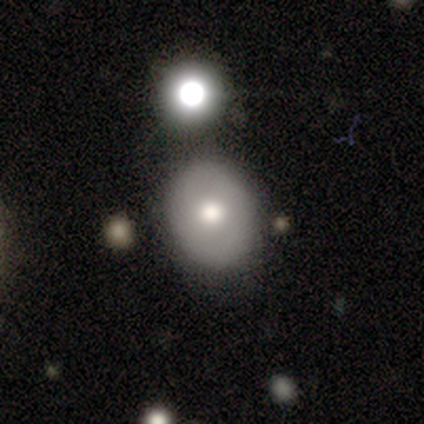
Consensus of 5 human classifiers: A smooth galaxy with no disk features (80%) that is round (100%).

Vote fractions:
- Smooth or featured? smooth: 80% / featured or disk: 20% / star or artifact: 0%
- How rounded? round: 100% / in between: 0% / cigar-shaped: 0%
- Merging? none: 80% / minor disturbance: 20% / major disturbance: 0% / merger: 0%